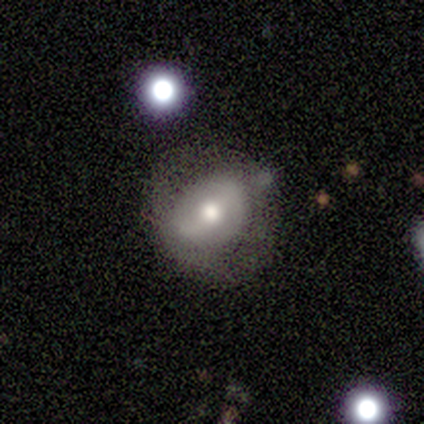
Smooth or featured: smooth — 40% (tied with featured or disk — 40%)
How rounded: in between — 100%
Merging: major disturbance — 50% (none — 25%)